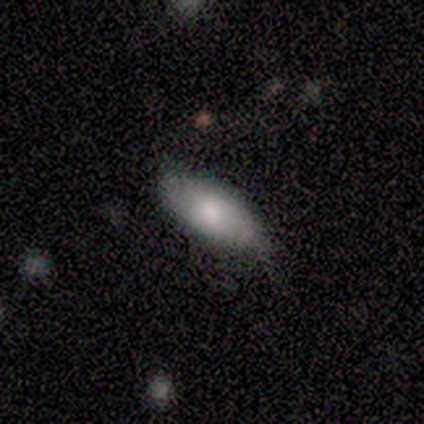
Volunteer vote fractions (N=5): Smooth or featured: smooth — 80% (featured or disk — 20%)
How rounded: in between — 100%
Merging: none — 80% (minor disturbance — 20%)